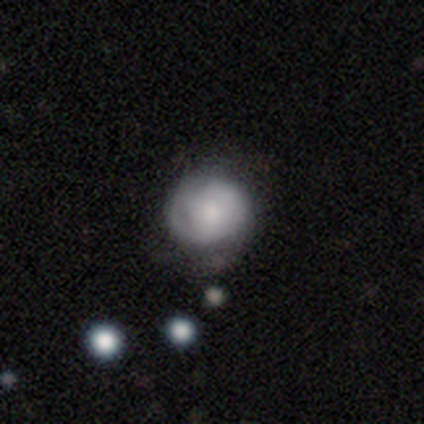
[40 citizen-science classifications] Smooth or featured? 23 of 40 (57%) said smooth. How rounded? 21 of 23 (91%) said round. Merging? 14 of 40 (35%) said minor disturbance.